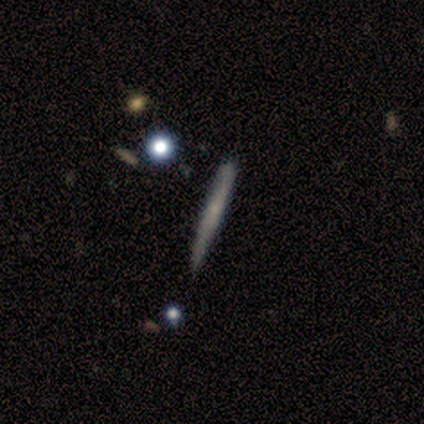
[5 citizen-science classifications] Smooth or featured? 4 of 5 (80%) said smooth. How rounded? 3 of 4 (75%) said cigar-shaped. Merging? 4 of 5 (80%) said none.